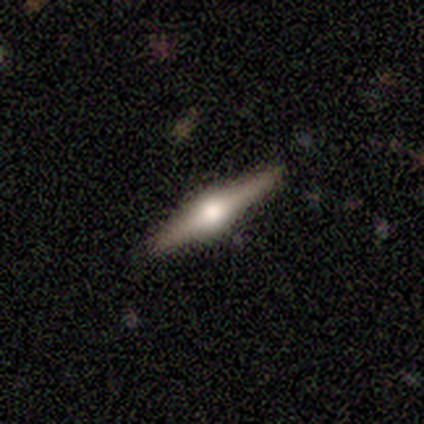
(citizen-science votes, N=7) A featured or disk galaxy (71%) viewed edge-on (100%) with a rounded central bulge (100%). Merging: none (86%).